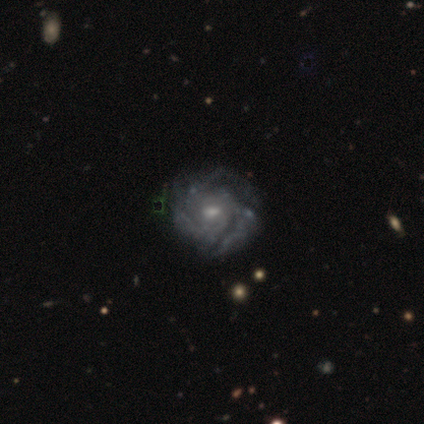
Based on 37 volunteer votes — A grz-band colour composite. It shows a featured or disk galaxy (89%) with a weak bar (48%, tied with no), 3 (55%) tight (61%) spiral arms (94%) and a moderate central bulge (55%). Merging: none (51%).